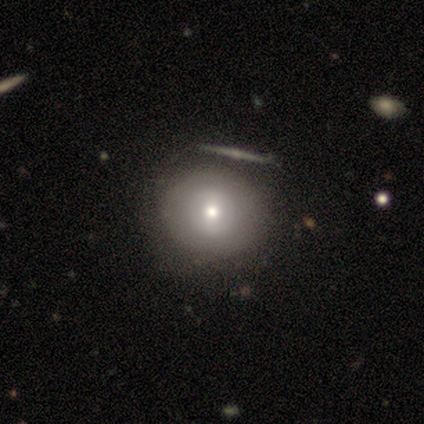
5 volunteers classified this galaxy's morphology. type=smooth (60%); roundness=round (100%); merging=none (60%).